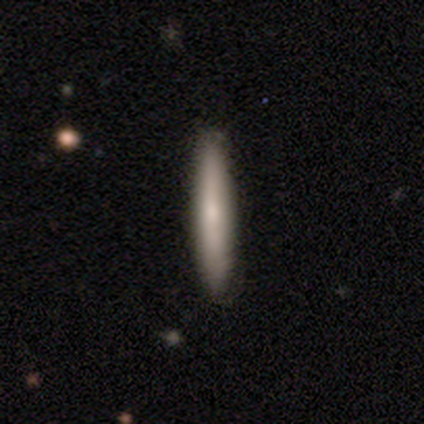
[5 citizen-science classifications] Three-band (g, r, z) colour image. It shows a smooth galaxy with no disk features (80%) that is cigar-shaped (100%). Merging: none (100%).